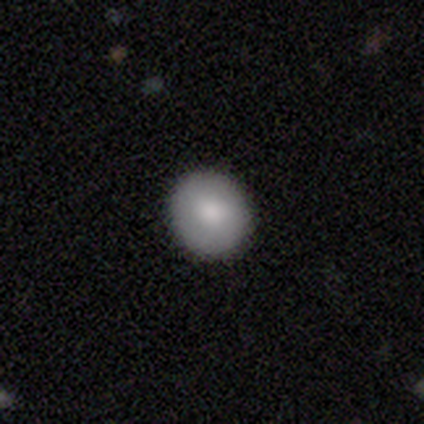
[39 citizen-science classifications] smooth_or_featured: smooth (p=0.85) [alt: featured or disk p=0.08]
how_rounded: round (p=0.88) [alt: in between p=0.12]
merging: none (p=0.94) [alt: minor disturbance p=0.06]